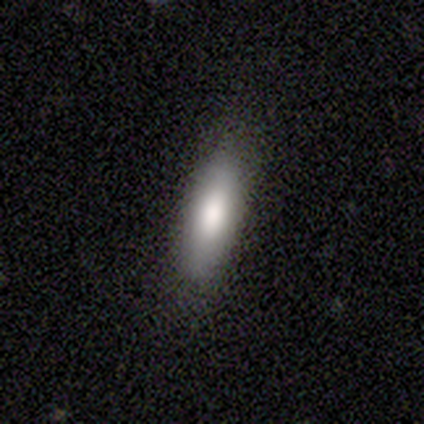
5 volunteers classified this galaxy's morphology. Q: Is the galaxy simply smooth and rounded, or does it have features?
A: smooth — 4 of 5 (80%).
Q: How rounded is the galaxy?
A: cigar-shaped — 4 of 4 (100%).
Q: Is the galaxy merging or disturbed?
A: none — 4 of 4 (100%).